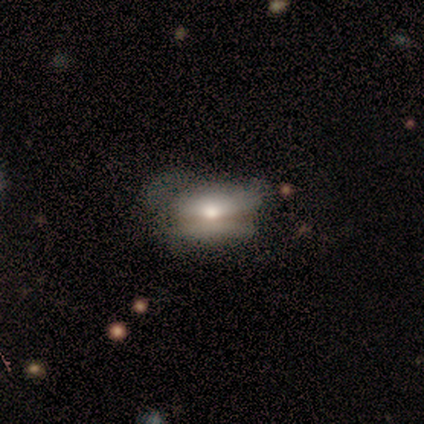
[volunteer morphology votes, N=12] Smooth or featured: smooth — 58% (featured or disk — 25%)
How rounded: in between — 86% (round — 14%)
Merging: none — 60% (minor disturbance — 30%)